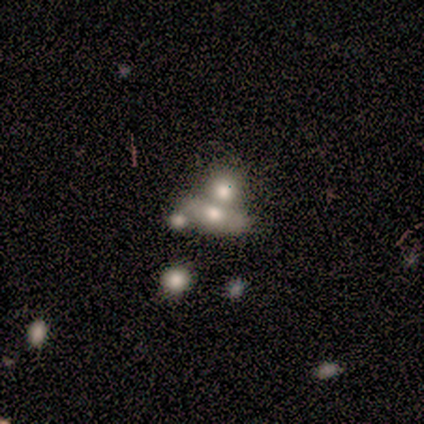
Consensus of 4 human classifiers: Morphology: type=star or artifact (50%).